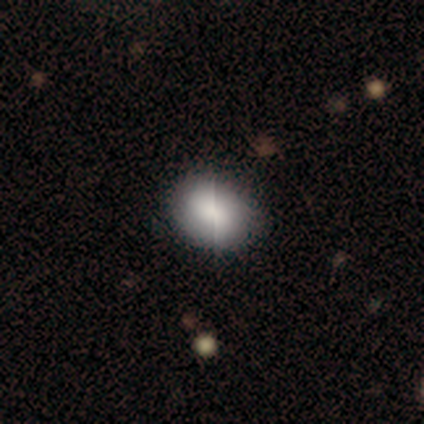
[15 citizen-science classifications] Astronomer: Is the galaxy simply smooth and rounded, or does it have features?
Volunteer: smooth — 87%.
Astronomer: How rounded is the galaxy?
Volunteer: in between — 62% (runner-up: round, 38%).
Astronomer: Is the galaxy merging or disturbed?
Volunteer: none — 71%.